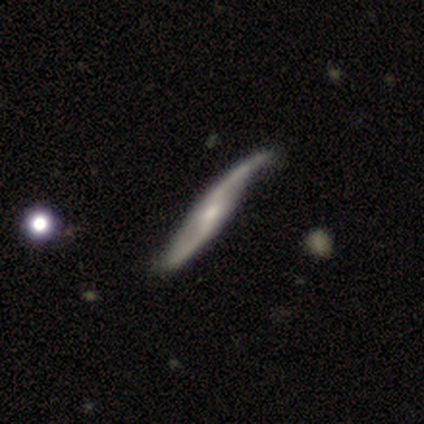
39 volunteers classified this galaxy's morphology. type=featured or disk (95%); edge-on=no (73%); bar=weak (37%); spiral arms=yes (96%); winding=loose (92%); arm count=2 (92%); bulge=small (63%); merging=none (46%).